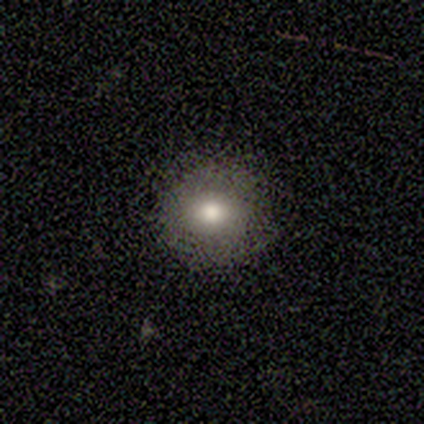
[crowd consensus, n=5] smooth 80%, featured or disk 20%, star or artifact 0%. Down the decision tree: how rounded — round (75%); merging — none (100%).